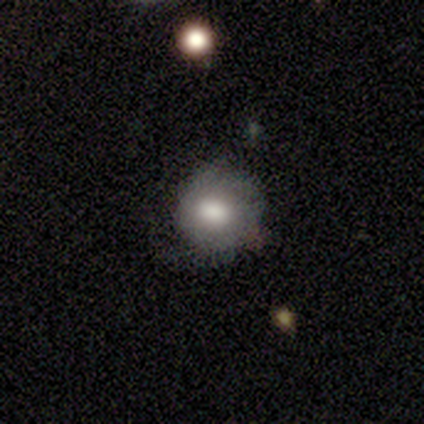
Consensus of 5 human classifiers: This is clearly a smooth galaxy (100%). How rounded: clearly round (80%). Merging: likely none (60%).